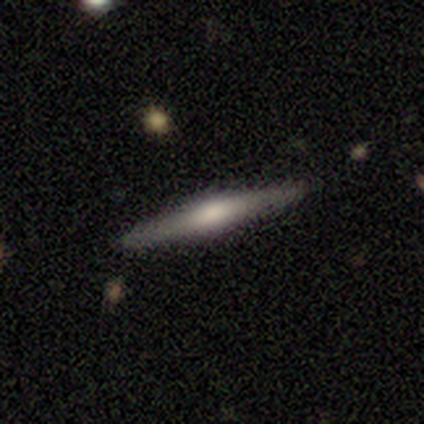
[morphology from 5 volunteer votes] This is clearly a featured or disk galaxy (100%). It is clearly viewed edge-on (100%). Edge-on bulge: clearly rounded (80%). Merging: clearly none (100%).